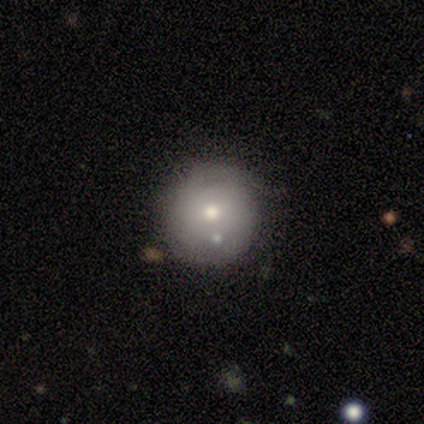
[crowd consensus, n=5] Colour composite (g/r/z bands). It shows a smooth galaxy with no disk features (40%, tied with featured or disk) that is round (100%). Merging: none (100%).